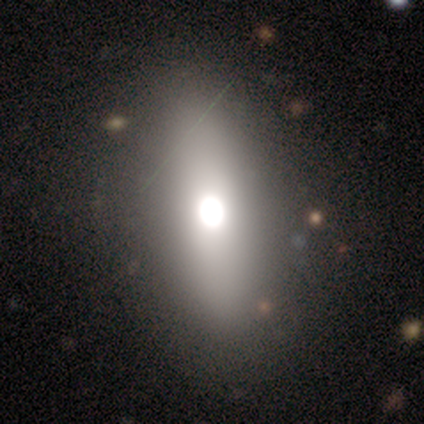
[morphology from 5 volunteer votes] A smooth galaxy with no disk features (60%) that is in between round and cigar-shaped (100%). Merging: minor disturbance (50%).